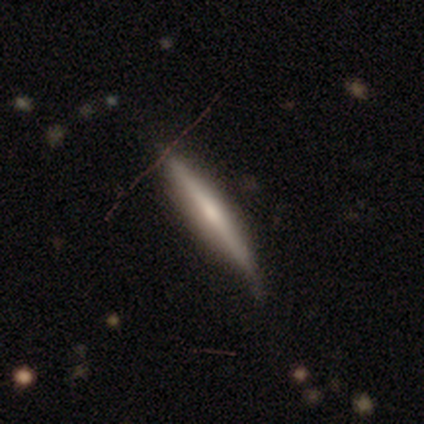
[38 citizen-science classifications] A featured or disk galaxy (68%) viewed edge-on (100%) with a rounded central bulge (58%).

Vote fractions:
- Smooth or featured? featured or disk: 68% / smooth: 21% / star or artifact: 11%
- Edge-on disk? yes: 100% / no: 0%
- Edge-on bulge? rounded: 58% / none: 35% / boxy: 8%
- Merging? none: 68% / minor disturbance: 24% / major disturbance: 9% / merger: 0%